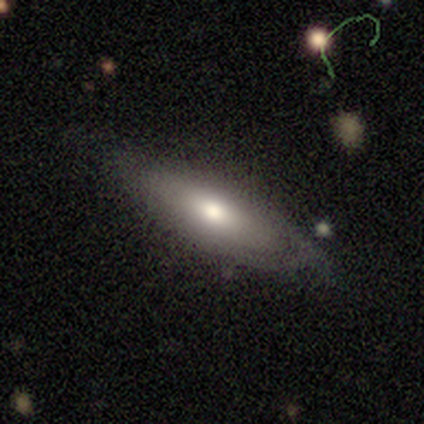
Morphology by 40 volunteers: Overall: smooth (55%; featured or disk 40%). How rounded: in between (73%). Merging: none (68%).